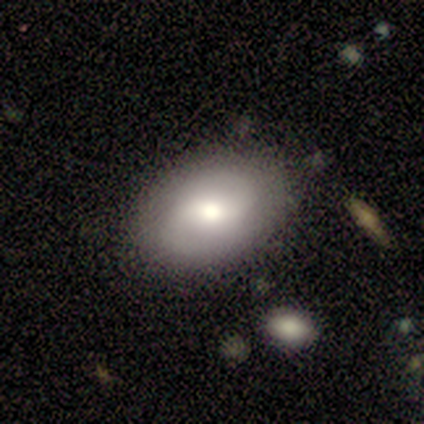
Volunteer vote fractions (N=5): Smooth or featured? smooth (60%)
How rounded? in between (100%)
Merging? none (100%)